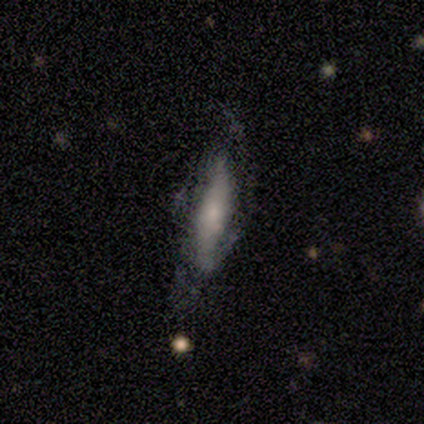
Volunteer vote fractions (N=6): Smooth or featured: smooth — 67% (featured or disk — 33%)
How rounded: cigar-shaped — 75% (in between — 25%)
Merging: minor disturbance — 50% (tied with major disturbance — 50%)